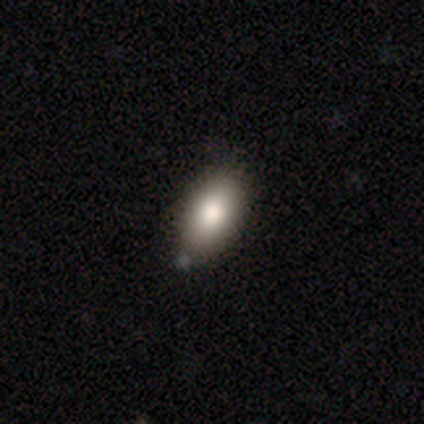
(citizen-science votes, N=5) smooth 80%, featured or disk 20%, star or artifact 0%. Down the decision tree: how rounded — in between (100%); merging — none (60%).